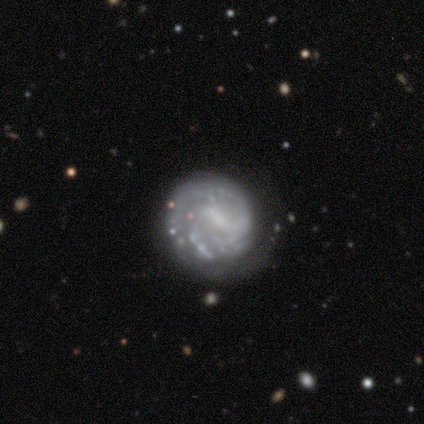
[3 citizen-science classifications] Volunteers were most divided on "bar" (2-way tie): weak: 50%, no: 50%, strong: 0%; "spiral winding" (2-way tie): tight: 50%, medium: 50%, loose: 0%; "spiral arm count" (2-way tie): 2: 50%, can't tell: 50%, 1: 0%, 3: 0%, 4: 0%, more than 4: 0%; "bulge size" (2-way tie): small: 50%, none: 50%, dominant: 0%, large: 0%, moderate: 0%; "merging" (3-way tie): none: 33%, minor disturbance: 33%, major disturbance: 33%, merger: 0%. More confident: edge-on disk — no (100%); spiral arms — yes (100%); smooth or featured — featured or disk (67%).